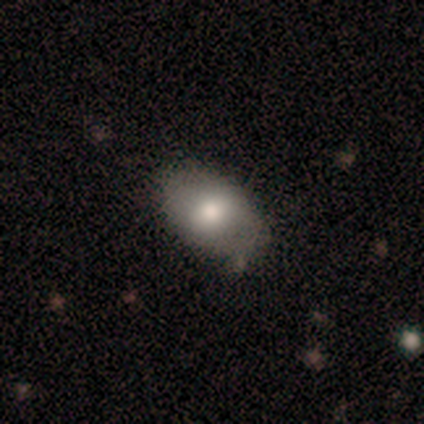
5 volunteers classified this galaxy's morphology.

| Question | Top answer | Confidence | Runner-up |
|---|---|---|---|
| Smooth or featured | smooth | 100% | — |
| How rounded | in between | 80% | round (20%) |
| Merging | none | 80% | minor disturbance (20%) |